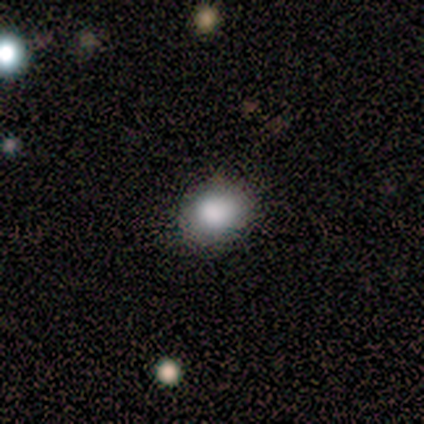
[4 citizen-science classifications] Q: Smooth or featured?
A: smooth (75%); runner-up: star or artifact (25%)
Q: How rounded?
A: round (67%); runner-up: in between (33%)
Q: Merging?
A: none (100%)